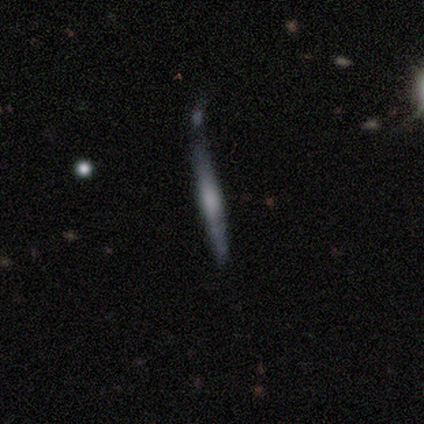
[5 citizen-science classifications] featured or disk 80%, star or artifact 20%, smooth 0%. Down the decision tree: edge-on disk — yes (100%); edge-on bulge — none (75%); merging — none (100%).